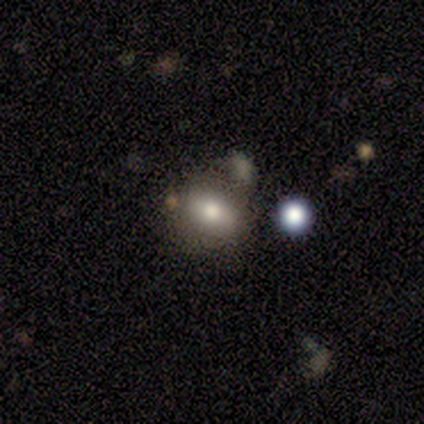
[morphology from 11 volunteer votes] Volunteers were most divided on "merging": none: 55%, major disturbance: 27%, minor disturbance: 18%, merger: 0%. More confident: how rounded — in between (100%); smooth or featured — smooth (73%).